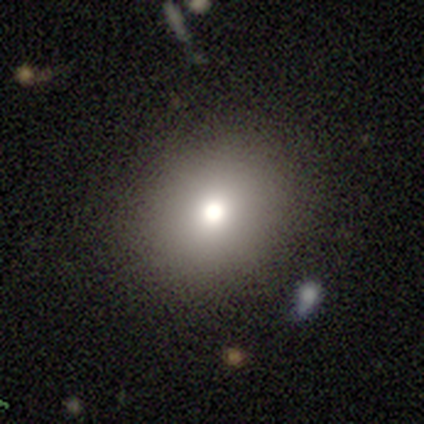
This is likely a smooth galaxy (70%). How rounded: likely round (74%). Merging: clearly none (83%).